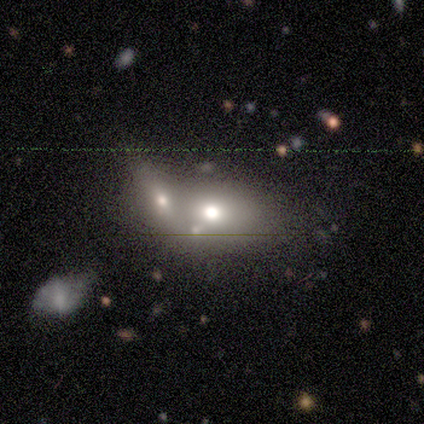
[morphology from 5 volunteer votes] Smooth or featured: smooth — 60% (featured or disk — 40%)
How rounded: in between — 100%
Merging: merger — 60% (none — 40%)